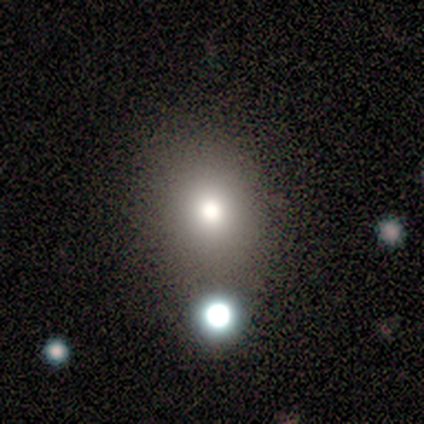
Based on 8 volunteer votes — Overall: smooth (62%; star or artifact 25%). How rounded: round (60%; in between 40%). Merging: none (50%, tied with minor disturbance).